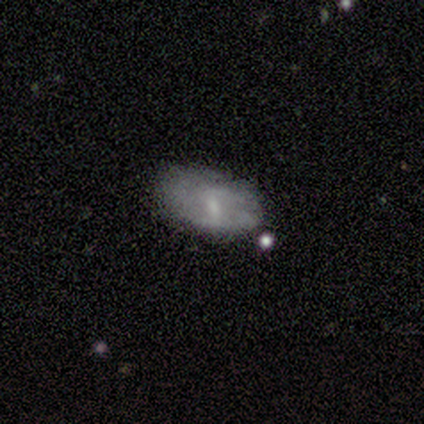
Smooth or featured?
  - featured or disk: 60% *
  - smooth: 40%
  - star or artifact: 0%
Edge-on disk?
  - no: 100% *
  - yes: 0%
Bar?
  - weak: 67% *
  - strong: 33%
  - no: 0%
Spiral arms?
  - no: 67% *
  - yes: 33%
Bulge size?
  - small: 67% *
  - moderate: 33%
  - dominant: 0%
  - large: 0%
  - none: 0%
Merging?
  - none: 60% *
  - minor disturbance: 20%
  - major disturbance: 20%
  - merger: 0%